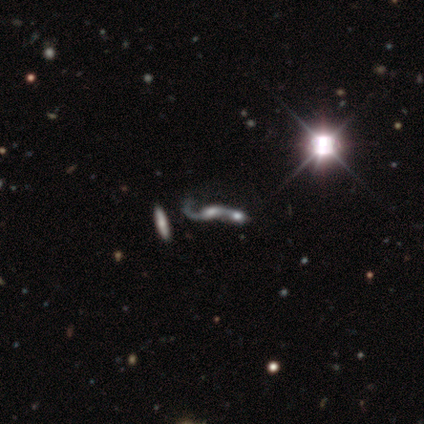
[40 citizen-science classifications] Smooth or featured? featured or disk (57%)
Edge-on disk? no (100%)
Bar? no (83%)
Spiral arms? yes (52%)
Spiral winding? loose (83%)
Spiral arm count? 2 (75%)
Bulge size? moderate (30%, tied with none)
Merging? merger (67%)